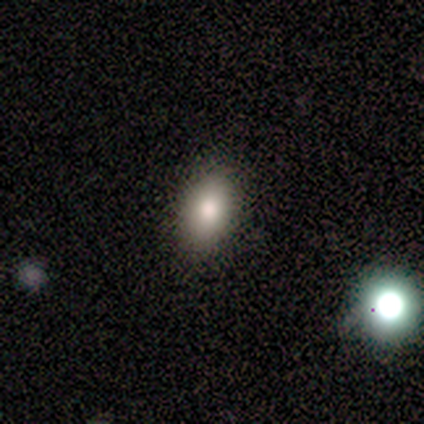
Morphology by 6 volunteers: This is clearly a smooth galaxy (83%). How rounded: clearly in between (100%). Merging: clearly none (100%).